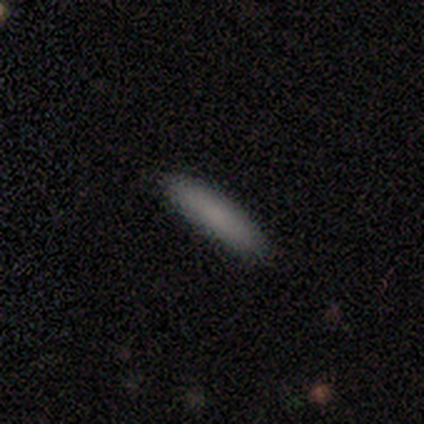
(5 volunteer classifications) A smooth galaxy with no disk features (100%) that is cigar-shaped (60%).

Vote fractions:
- Smooth or featured? smooth: 100% / featured or disk: 0% / star or artifact: 0%
- How rounded? cigar-shaped: 60% / in between: 40% / round: 0%
- Merging? none: 100% / minor disturbance: 0% / major disturbance: 0% / merger: 0%